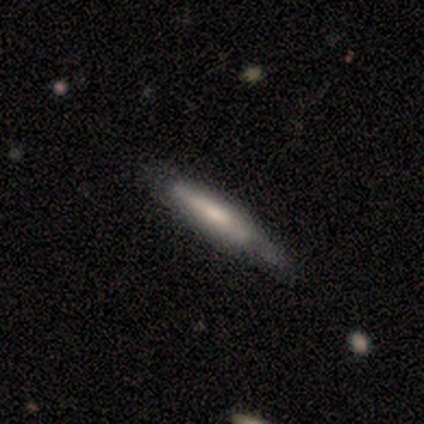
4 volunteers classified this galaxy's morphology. Overall: smooth (50%; featured or disk 25%). How rounded: cigar-shaped (100%). Merging: none (67%; minor disturbance 33%).